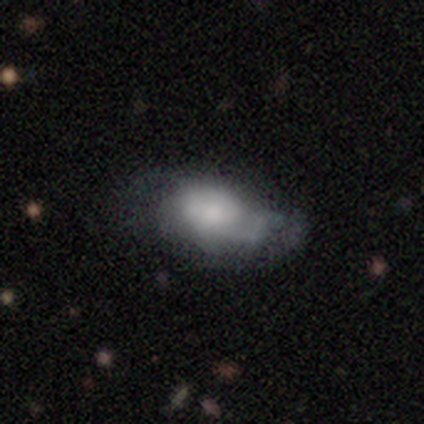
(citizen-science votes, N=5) Morphology: type=featured or disk (100%); edge-on=no (100%); bar=no (100%); spiral arms=yes (80%); winding=medium (100%); arm count=can't tell (50%); bulge=small (40%); merging=none (60%).